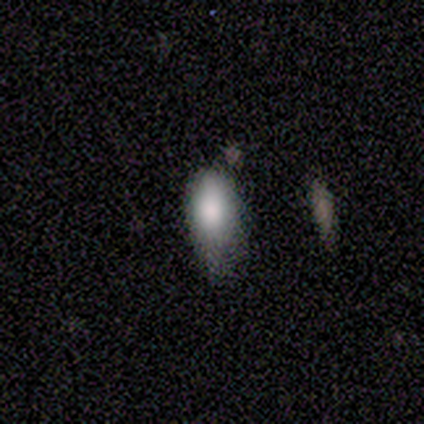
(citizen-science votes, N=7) Volunteers were most divided on "how rounded": in between: 83%, cigar-shaped: 17%, round: 0%. More confident: smooth or featured — smooth (86%); merging — minor disturbance (86%).